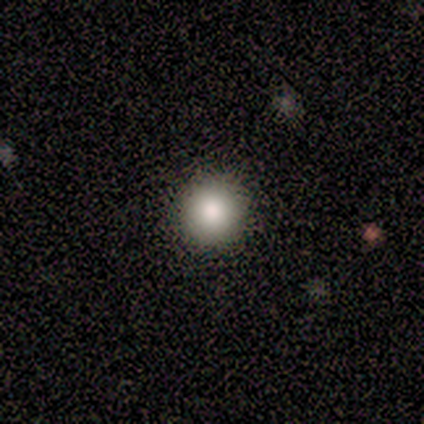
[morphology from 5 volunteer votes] A smooth galaxy with no disk features (100%) that is round (100%). Merging: none (100%).